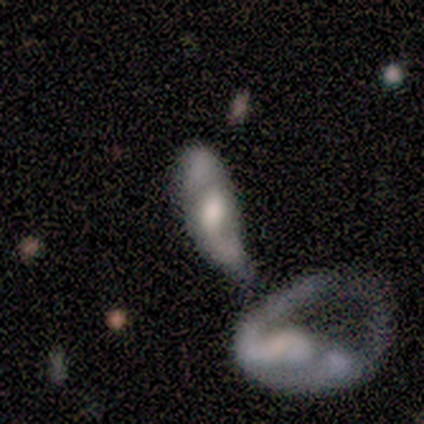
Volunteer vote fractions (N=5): Volunteers were most divided on "smooth or featured" (2-way tie): featured or disk: 40%, star or artifact: 40%, smooth: 20%; "bulge size" (2-way tie): moderate: 50%, none: 50%, dominant: 0%, large: 0%, small: 0%. More confident: edge-on disk — no (100%); bar — no (100%); spiral arms — no (100%); merging — merger (100%).